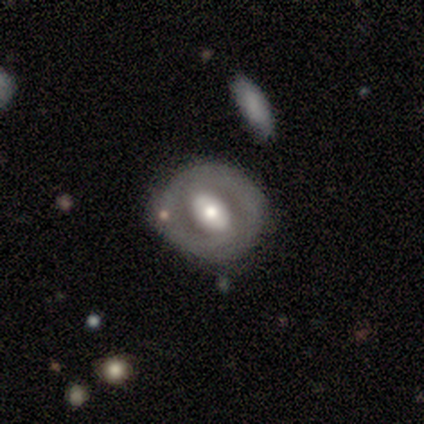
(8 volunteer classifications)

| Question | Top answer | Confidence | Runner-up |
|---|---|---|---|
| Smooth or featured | featured or disk | 75% | smooth (12%) |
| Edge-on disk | no | 100% | — |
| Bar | no | 50% | strong (33%) |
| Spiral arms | no | 67% | yes (33%) |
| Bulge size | moderate | 83% | large (17%) |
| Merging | none | 71% | minor disturbance (29%) |